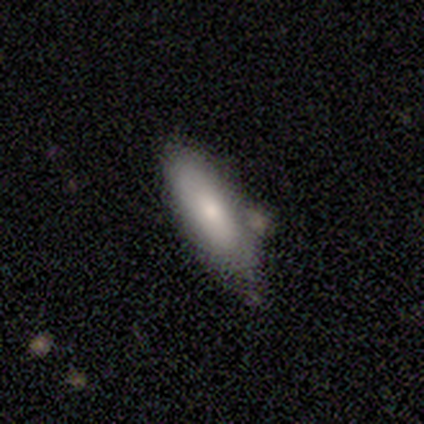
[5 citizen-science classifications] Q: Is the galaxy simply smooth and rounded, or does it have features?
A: smooth — 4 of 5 (80%).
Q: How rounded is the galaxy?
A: in between — 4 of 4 (100%).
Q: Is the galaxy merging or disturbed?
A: none — 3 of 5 (60%).